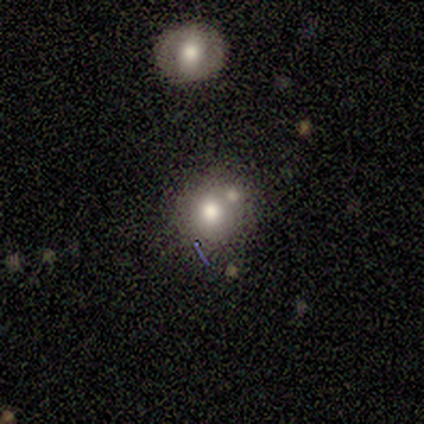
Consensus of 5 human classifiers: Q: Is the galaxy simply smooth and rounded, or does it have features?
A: smooth — 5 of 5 (100%).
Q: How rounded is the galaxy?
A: round — 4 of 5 (80%).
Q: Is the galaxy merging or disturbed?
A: none — 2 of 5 (40%, tied with merger).